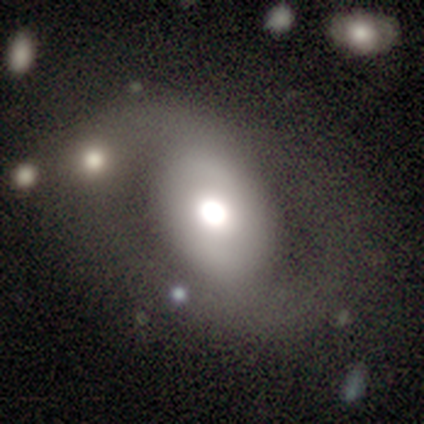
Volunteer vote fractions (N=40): Smooth or featured? 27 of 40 (68%) said featured or disk. Edge-on disk? 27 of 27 (100%) said no. Bar? 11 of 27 (41%) said no. Spiral arms? 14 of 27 (52%) said no. Bulge size? 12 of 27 (44%) said large. Merging? 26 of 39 (67%) said none.